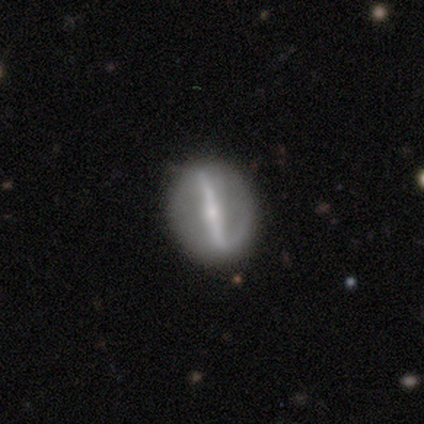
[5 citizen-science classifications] A featured or disk galaxy (80%) with a strong bar (75%), no spiral arms (100%) and a small central bulge (75%). Merging: none (80%).